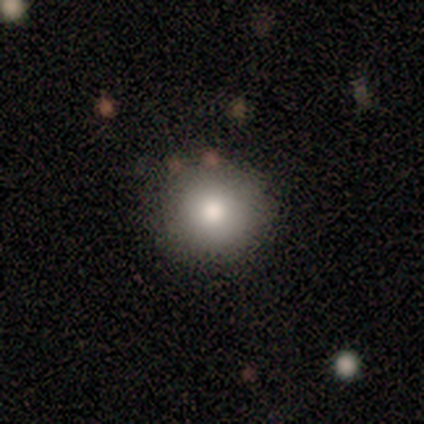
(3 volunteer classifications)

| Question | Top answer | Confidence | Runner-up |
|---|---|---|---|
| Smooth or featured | smooth | 100% | — |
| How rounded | round | 67% | in between (33%) |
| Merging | none | 67% | minor disturbance (33%) |